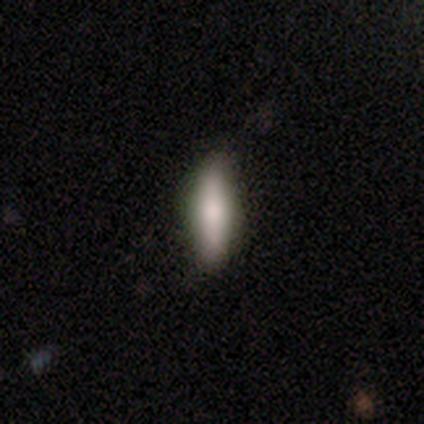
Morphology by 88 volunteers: Smooth or featured: smooth — 74% (featured or disk — 23%)
How rounded: cigar-shaped — 60% (in between — 37%)
Merging: none — 82% (minor disturbance — 11%)